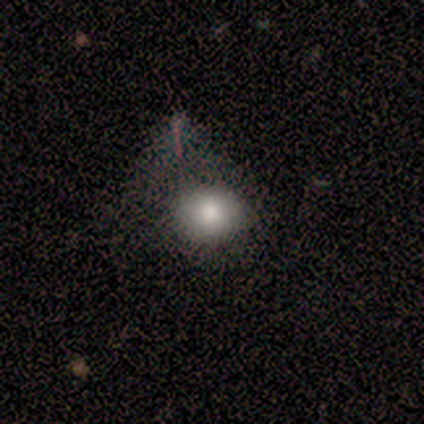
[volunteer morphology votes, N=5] Smooth or featured: smooth — 80% (star or artifact — 20%)
How rounded: round — 100%
Merging: none — 75% (major disturbance — 25%)